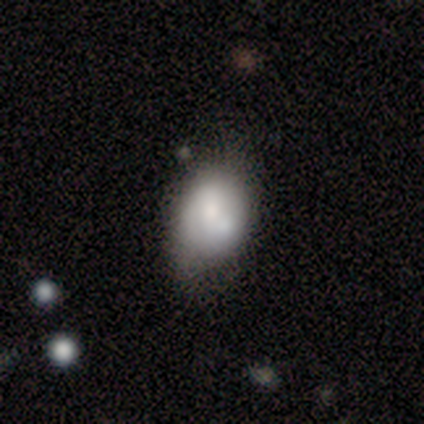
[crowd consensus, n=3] Smooth or featured: smooth — 100%
How rounded: round — 67% (in between — 33%)
Merging: none — 67% (minor disturbance — 33%)